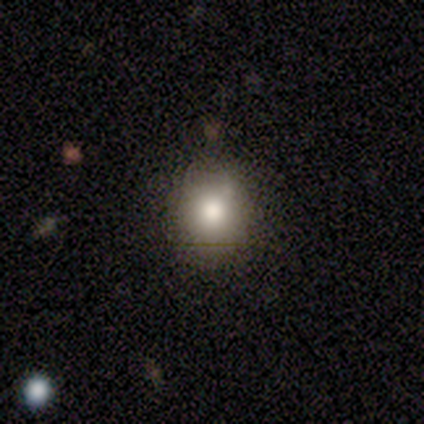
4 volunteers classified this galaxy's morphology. Smooth or featured: smooth — 50% (tied with featured or disk — 50%)
How rounded: round — 50% (tied with in between — 50%)
Merging: none — 75% (merger — 25%)